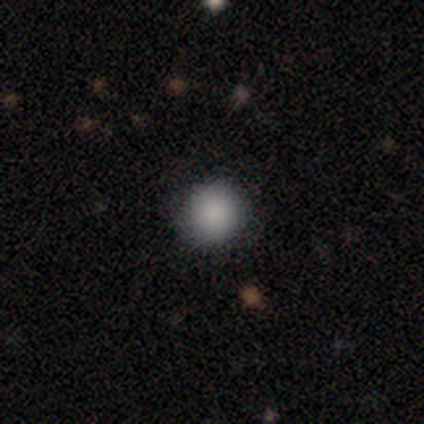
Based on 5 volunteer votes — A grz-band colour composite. It shows a smooth galaxy with no disk features (100%) that is round (100%). Merging: none (100%).